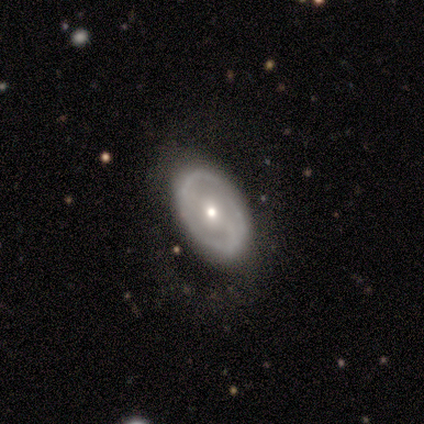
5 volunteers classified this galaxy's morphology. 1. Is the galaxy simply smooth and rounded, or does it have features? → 100% featured or disk, 0% smooth, 0% star or artifact.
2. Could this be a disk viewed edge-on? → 100% no, 0% yes.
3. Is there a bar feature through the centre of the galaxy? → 60% no, 40% weak, 0% strong.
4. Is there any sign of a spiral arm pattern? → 60% no, 40% yes.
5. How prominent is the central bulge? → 100% small, 0% dominant, 0% large, 0% moderate, 0% none.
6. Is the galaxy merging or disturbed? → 80% none, 20% major disturbance, 0% minor disturbance, 0% merger.